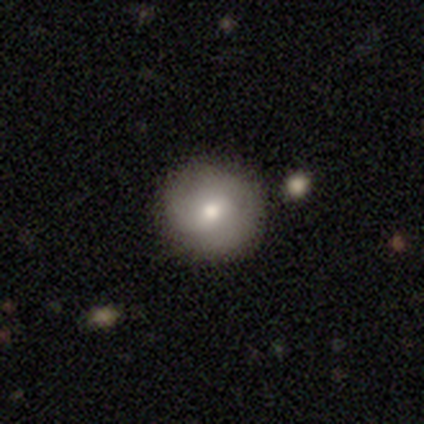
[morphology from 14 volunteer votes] Smooth or featured? featured or disk (50%)
Edge-on disk? no (100%)
Bar? weak (57%)
Spiral arms? yes (86%)
Spiral winding? medium (67%)
Spiral arm count? 2 (50%, tied with can't tell)
Bulge size? moderate (71%)
Merging? none (100%)